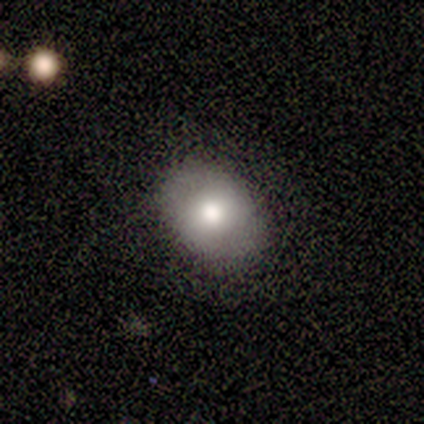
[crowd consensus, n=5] This is clearly a smooth galaxy (80%). How rounded: clearly in between (100%). Merging: clearly none (80%).